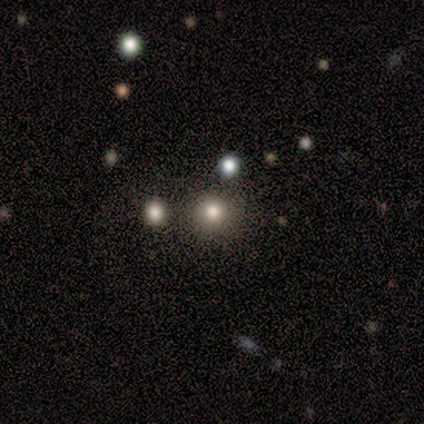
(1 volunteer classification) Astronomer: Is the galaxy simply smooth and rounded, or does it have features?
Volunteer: smooth — 100%.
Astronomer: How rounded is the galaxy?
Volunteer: round — 100%.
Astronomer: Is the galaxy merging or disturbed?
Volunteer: none — 100%.